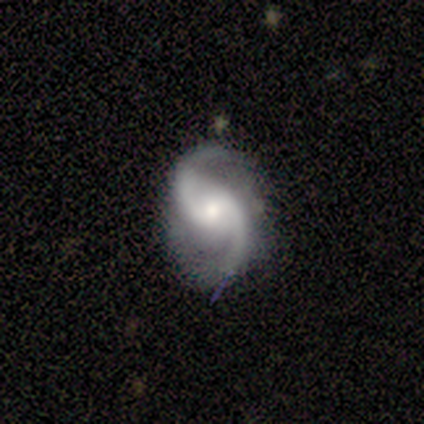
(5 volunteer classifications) smooth_or_featured: featured or disk (p=0.80) [alt: smooth p=0.20]
disk_edge_on: no (p=1.00)
bar: weak (p=0.50) [alt: strong p=0.25]
has_spiral_arms: yes (p=1.00)
spiral_winding: medium (p=0.50) [alt: tight p=0.25]
spiral_arm_count: 2 (p=0.75) [alt: 3 p=0.25]
bulge_size: moderate (p=0.50) [alt: large p=0.25]
merging: none (p=0.40) [tied with: minor disturbance p=0.40]